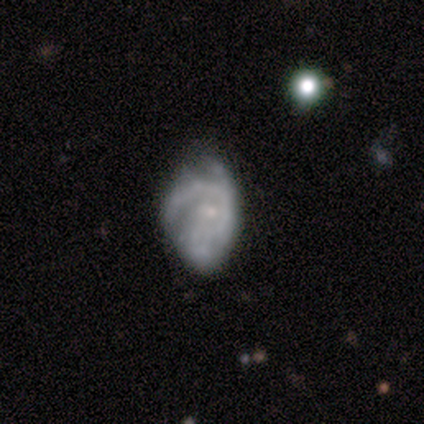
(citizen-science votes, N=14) This appears to be a featured or disk galaxy (86%) with no bar (67%), 1 (45%) tight (64%) spiral arms (92%) and a small central bulge (67%). Merging: none (57%).